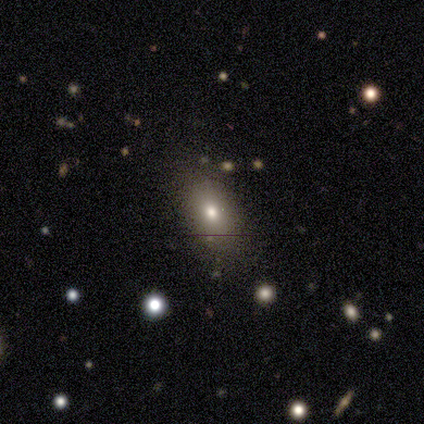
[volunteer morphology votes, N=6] Smooth or featured?
  - smooth: 83% *
  - featured or disk: 17%
  - star or artifact: 0%
How rounded?
  - in between: 60% *
  - round: 20%
  - cigar-shaped: 20%
Merging?
  - none: 83% *
  - minor disturbance: 17%
  - major disturbance: 0%
  - merger: 0%